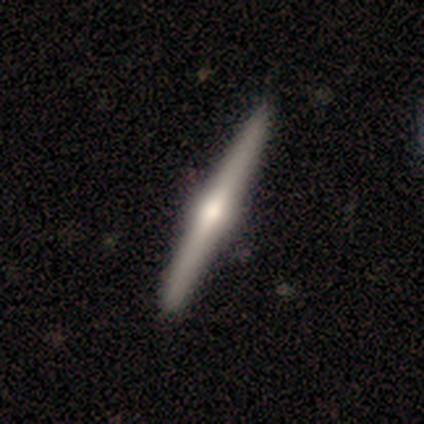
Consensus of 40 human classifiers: Smooth or featured?
  - featured or disk: 90% *
  - smooth: 5%
  - star or artifact: 5%
Edge-on disk?
  - yes: 100% *
  - no: 0%
Edge-on bulge?
  - rounded: 97% *
  - none: 3%
  - boxy: 0%
Merging?
  - none: 97% *
  - minor disturbance: 3%
  - major disturbance: 0%
  - merger: 0%